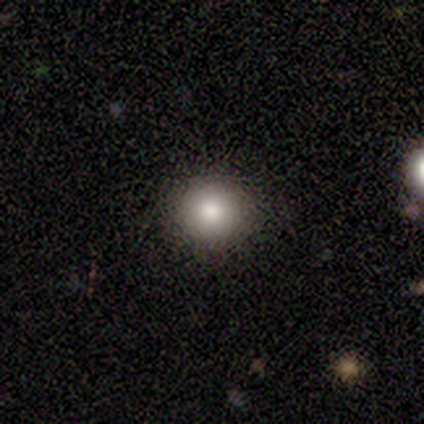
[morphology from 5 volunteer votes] Smooth or featured: smooth — 80% (star or artifact — 20%)
How rounded: round — 100%
Merging: none — 100%